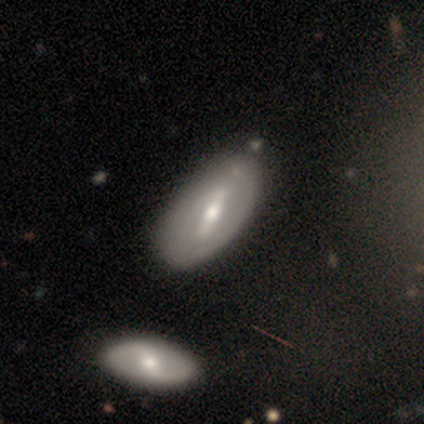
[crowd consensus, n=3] This is likely a featured or disk galaxy (67%). It is clearly not viewed edge-on (100%). Bar: clearly strong (100%). Spiral arm pattern: possibly yes (50%, tied with no). Spiral arm count: clearly 2 (100%). Spiral winding: clearly tight (100%). Central bulge: possibly moderate (50%, tied with small). Merging: likely none (67%).